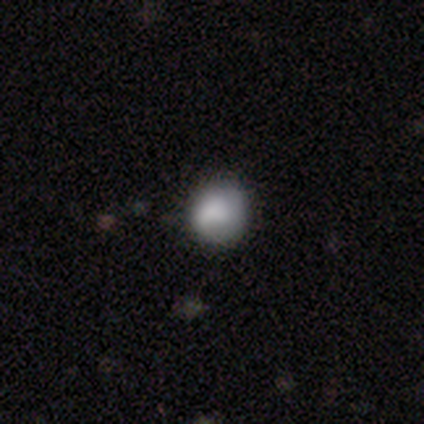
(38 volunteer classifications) smooth-or-featured: smooth: 79% | star or artifact: 13% | featured or disk: 8%
  how-rounded: round: 73% | in between: 27% | cigar-shaped: 0%
  merging: none: 52% | minor disturbance: 39% | major disturbance: 9% | merger: 0%